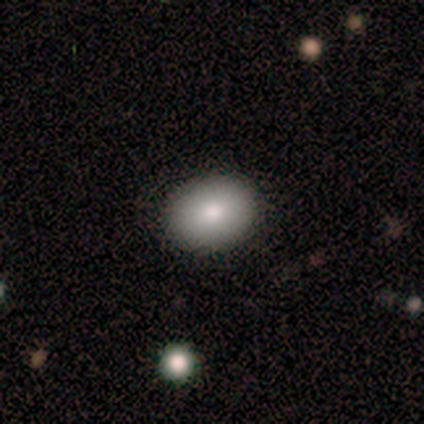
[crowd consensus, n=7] This appears to be a smooth galaxy with no disk features (100%) that is in between round and cigar-shaped (71%). Merging: none (86%).